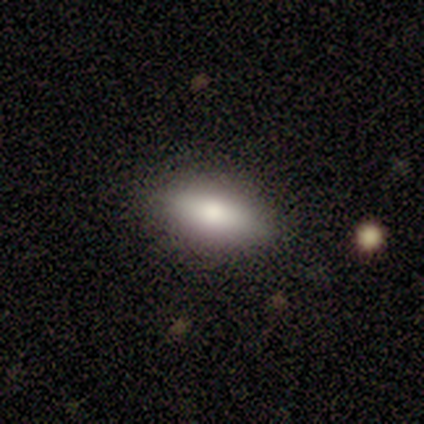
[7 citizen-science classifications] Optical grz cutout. It shows a smooth galaxy with no disk features (100%) that is in between round and cigar-shaped (86%). Merging: none (100%).